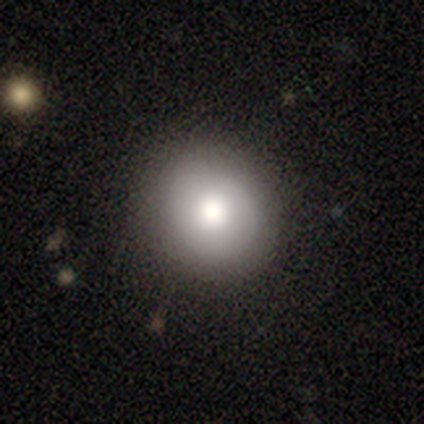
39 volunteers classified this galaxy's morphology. smooth_or_featured: smooth (p=0.85) [alt: featured or disk p=0.10]
how_rounded: round (p=0.85) [alt: in between p=0.15]
merging: none (p=0.70) [alt: minor disturbance p=0.03]